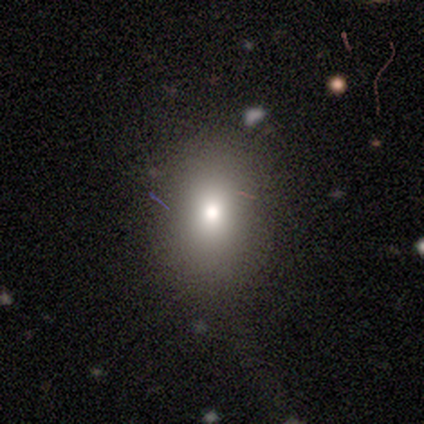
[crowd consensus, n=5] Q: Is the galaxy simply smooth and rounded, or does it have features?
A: smooth — 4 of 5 (80%).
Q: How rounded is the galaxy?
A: round — 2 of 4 (50%, tied with in between).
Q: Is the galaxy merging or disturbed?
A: none — 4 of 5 (80%).